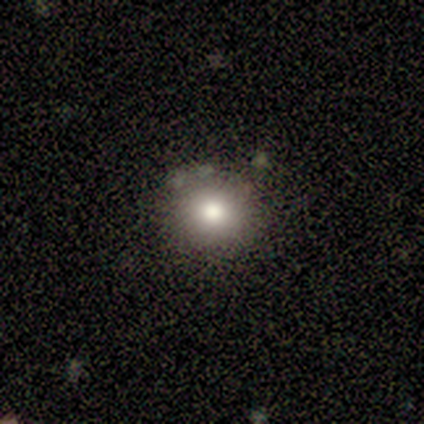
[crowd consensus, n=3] Q: Smooth or featured?
A: smooth (67%); runner-up: featured or disk (33%)
Q: How rounded?
A: round (100%)
Q: Merging?
A: none (67%); runner-up: major disturbance (33%)